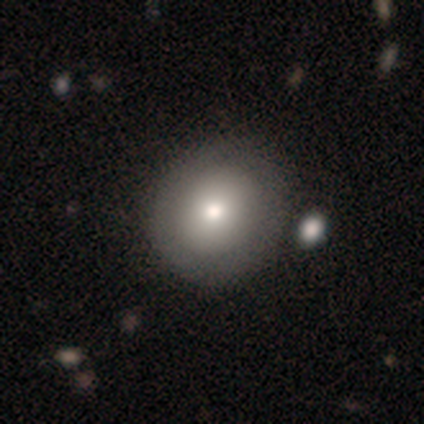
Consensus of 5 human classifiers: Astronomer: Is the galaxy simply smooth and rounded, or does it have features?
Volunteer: smooth — 40%, tied with featured or disk at 40%.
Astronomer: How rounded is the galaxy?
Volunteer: round — 100%.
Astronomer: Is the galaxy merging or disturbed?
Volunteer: none — 50%.